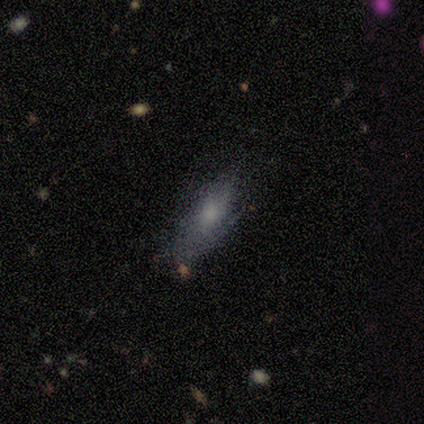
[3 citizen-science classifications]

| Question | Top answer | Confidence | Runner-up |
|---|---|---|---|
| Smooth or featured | smooth | 67% | featured or disk (33%) |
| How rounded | in between | 100% | — |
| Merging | minor disturbance | 67% | none (33%) |